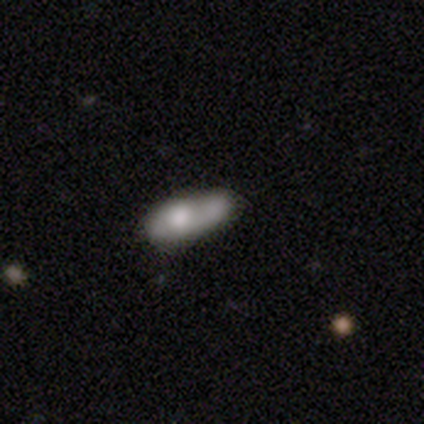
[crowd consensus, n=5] A featured or disk galaxy (60%) with no bar (100%), no spiral arms (100%) and a moderate central bulge (100%). Merging: merger (40%).